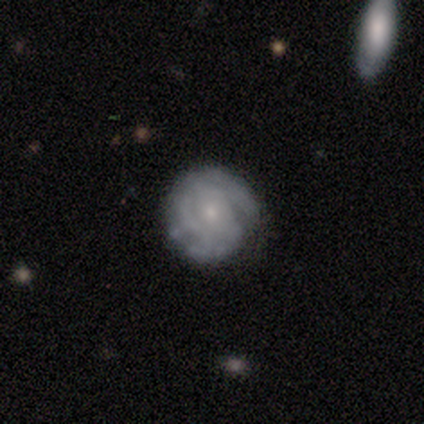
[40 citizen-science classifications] Smooth or featured? featured or disk (75%)
Edge-on disk? no (100%)
Bar? no (70%)
Spiral arms? yes (93%)
Spiral winding? tight (82%)
Spiral arm count? can't tell (36%)
Bulge size? small (87%)
Merging? none (84%)